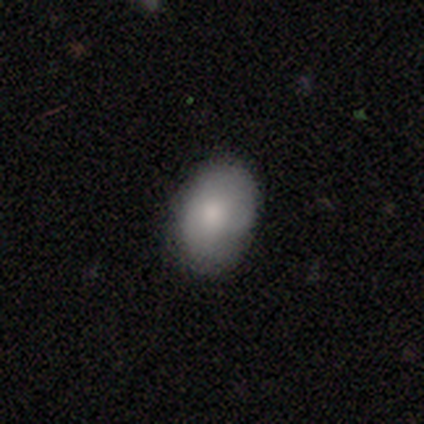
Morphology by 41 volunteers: type=smooth (90%); roundness=in between (89%); merging=none (76%).